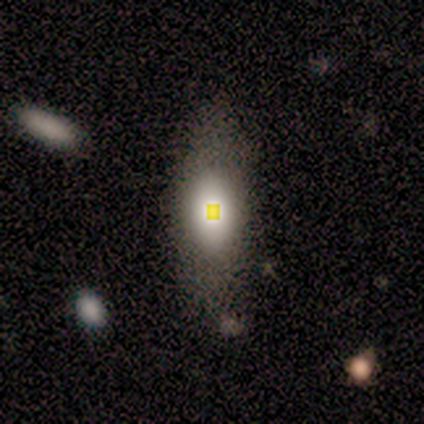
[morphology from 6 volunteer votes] smooth-or-featured: smooth: 50% | featured or disk: 33% | star or artifact: 17%
  how-rounded: in between: 100% | round: 0% | cigar-shaped: 0%
  merging: none: 100% | minor disturbance: 0% | major disturbance: 0% | merger: 0%